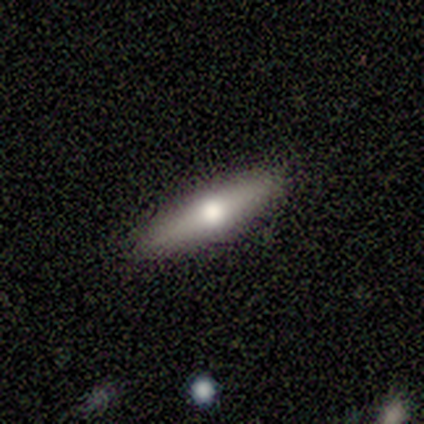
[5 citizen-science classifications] Q: Smooth or featured?
A: featured or disk (80%); runner-up: smooth (20%)
Q: Edge-on disk?
A: yes (75%); runner-up: no (25%)
Q: Edge-on bulge?
A: rounded (67%); runner-up: boxy (33%)
Q: Merging?
A: none (80%); runner-up: major disturbance (20%)